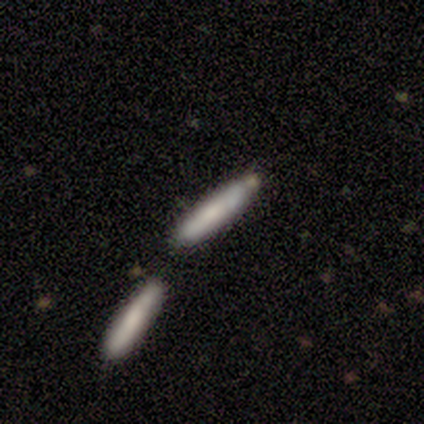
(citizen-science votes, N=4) A smooth galaxy with no disk features (50%, tied with featured or disk) that is cigar-shaped (100%).

Vote fractions:
- Smooth or featured? smooth: 50% (tied) / featured or disk: 50% (tied) / star or artifact: 0%
- How rounded? cigar-shaped: 100% / round: 0% / in between: 0%
- Merging? none: 75% / merger: 25% / minor disturbance: 0% / major disturbance: 0%